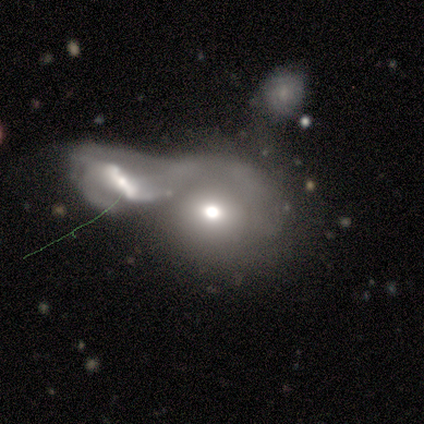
Volunteers were most divided on "merging" (2-way tie): major disturbance: 40%, merger: 40%, none: 20%, minor disturbance: 0%. More confident: how rounded — round (67%); smooth or featured — smooth (60%).